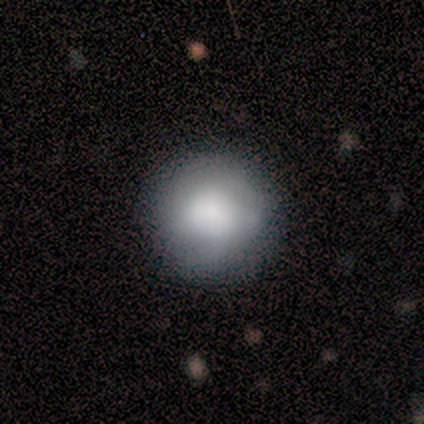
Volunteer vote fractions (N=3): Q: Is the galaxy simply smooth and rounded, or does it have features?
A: smooth — 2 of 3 (67%).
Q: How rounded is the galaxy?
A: round — 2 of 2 (100%).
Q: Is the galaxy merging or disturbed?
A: none — 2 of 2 (100%).